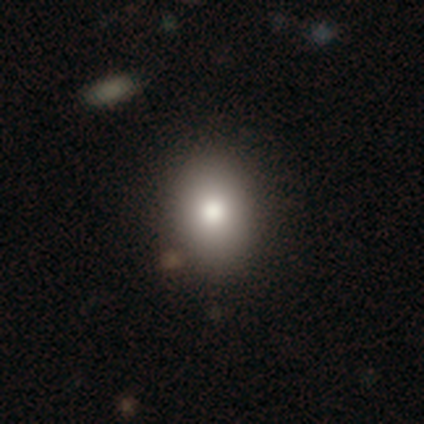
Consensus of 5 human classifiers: A smooth galaxy with no disk features (100%) that is round (40%, tied with in between).

Vote fractions:
- Smooth or featured? smooth: 100% / featured or disk: 0% / star or artifact: 0%
- How rounded? round: 40% (tied) / in between: 40% (tied) / cigar-shaped: 20%
- Merging? none: 100% / minor disturbance: 0% / major disturbance: 0% / merger: 0%